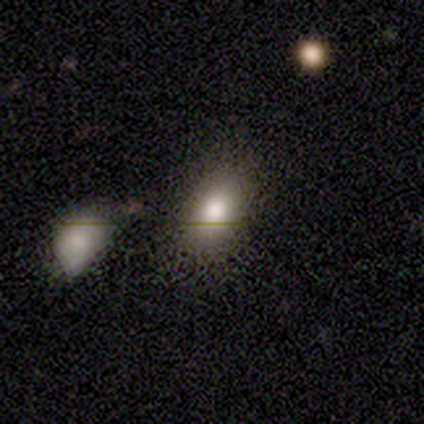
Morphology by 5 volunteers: A smooth galaxy with no disk features (60%) that is in between round and cigar-shaped (67%).

Vote fractions:
- Smooth or featured? smooth: 60% / featured or disk: 40% / star or artifact: 0%
- How rounded? in between: 67% / round: 33% / cigar-shaped: 0%
- Merging? none: 80% / minor disturbance: 20% / major disturbance: 0% / merger: 0%